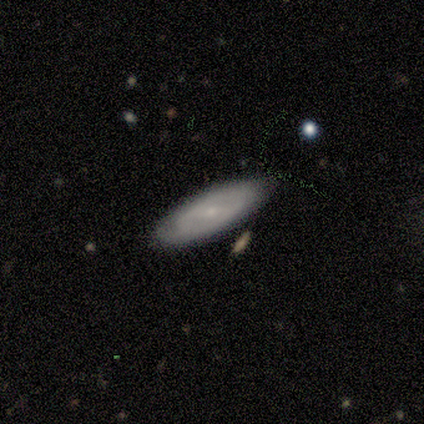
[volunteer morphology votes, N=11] featured or disk 82%, smooth 18%, star or artifact 0%. Down the decision tree: edge-on disk — no (67%); bar — strong (67%); spiral arms — yes (67%); spiral arm count — can't tell (50%); spiral winding — medium (75%); bulge size — small (83%); merging — none (82%).